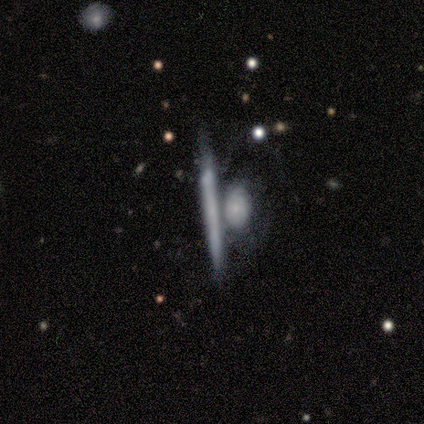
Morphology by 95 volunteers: Overall: featured or disk (59%; smooth 34%). Edge-on disk: yes (88%). Edge-on bulge: none (80%). Merging: merger (52%; none 25%).